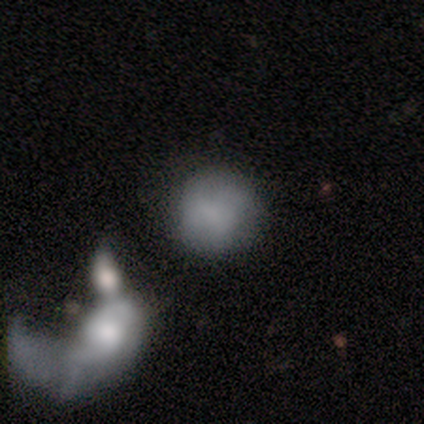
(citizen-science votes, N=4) A smooth galaxy with no disk features (50%) that is round (100%).

Vote fractions:
- Smooth or featured? smooth: 50% / featured or disk: 25% / star or artifact: 25%
- How rounded? round: 100% / in between: 0% / cigar-shaped: 0%
- Merging? none: 33% (tied) / major disturbance: 33% (tied) / merger: 33% (tied) / minor disturbance: 0%